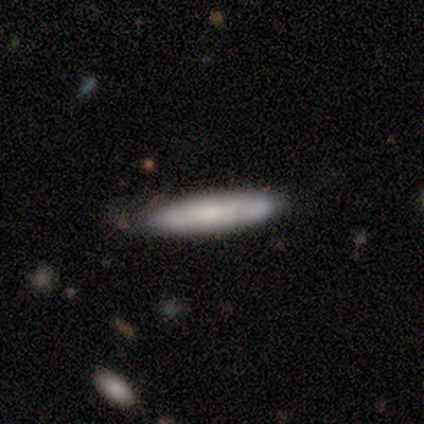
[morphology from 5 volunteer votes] A smooth galaxy with no disk features (80%) that is in between round and cigar-shaped (50%, tied with cigar-shaped). Merging: none (60%).